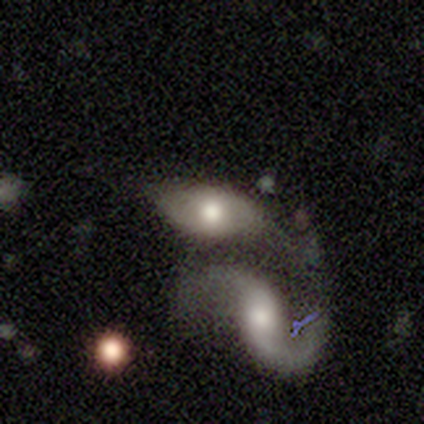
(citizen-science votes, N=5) This appears to be a smooth galaxy with no disk features (60%) that is in between round and cigar-shaped (100%). Merging: merger (60%).